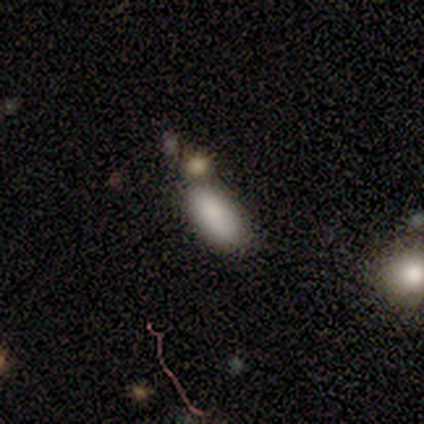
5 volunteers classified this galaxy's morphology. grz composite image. It shows a smooth galaxy with no disk features (60%) that is in between round and cigar-shaped (100%). Merging: none (40%, tied with merger).